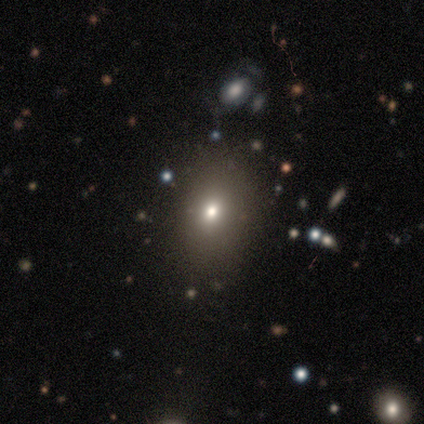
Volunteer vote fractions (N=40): A smooth galaxy with no disk features (60%) that is in between round and cigar-shaped (79%). Merging: none (82%).